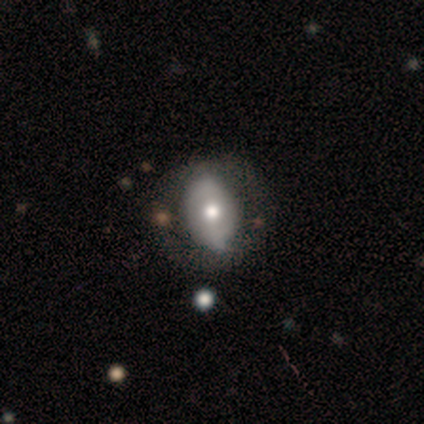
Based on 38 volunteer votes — A featured or disk galaxy (55%) with no bar (61%), no spiral arms (83%) and a moderate central bulge (67%). Merging: none (50%).